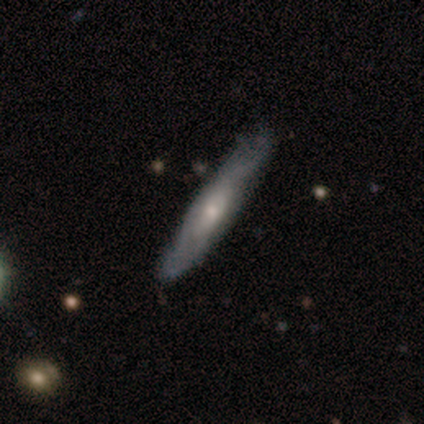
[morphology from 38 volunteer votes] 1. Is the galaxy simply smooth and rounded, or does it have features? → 63% featured or disk, 34% smooth, 3% star or artifact.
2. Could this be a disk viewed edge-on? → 58% yes, 42% no.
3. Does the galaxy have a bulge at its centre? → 71% rounded, 21% boxy, 7% none.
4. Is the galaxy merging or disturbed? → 59% none, 27% minor disturbance, 14% major disturbance, 0% merger.